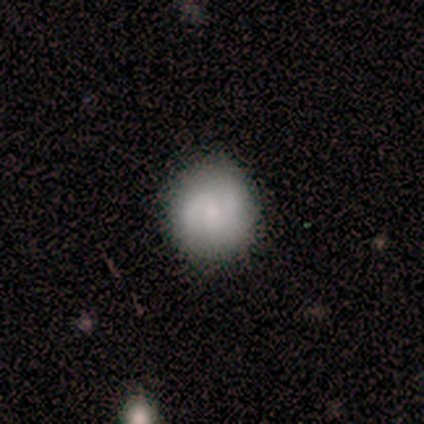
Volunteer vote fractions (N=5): Smooth or featured: smooth — 100%
How rounded: round — 100%
Merging: none — 100%